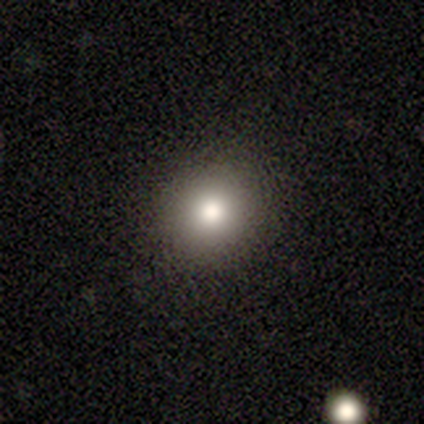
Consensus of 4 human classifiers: A smooth galaxy with no disk features (50%, tied with featured or disk) that is round (100%).

Vote fractions:
- Smooth or featured? smooth: 50% (tied) / featured or disk: 50% (tied) / star or artifact: 0%
- How rounded? round: 100% / in between: 0% / cigar-shaped: 0%
- Merging? none: 100% / minor disturbance: 0% / major disturbance: 0% / merger: 0%